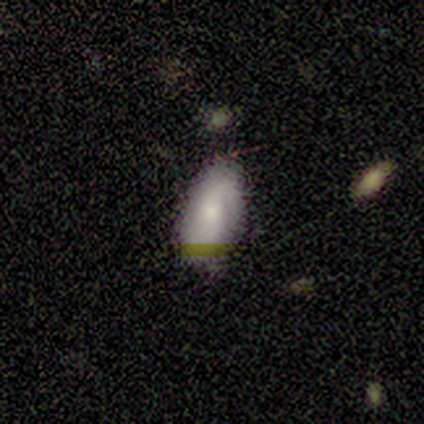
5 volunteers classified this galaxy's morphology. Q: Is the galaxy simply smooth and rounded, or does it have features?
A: featured or disk — 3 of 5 (60%).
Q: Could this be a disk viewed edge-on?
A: no — 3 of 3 (100%).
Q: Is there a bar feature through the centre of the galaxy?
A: weak — 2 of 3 (67%).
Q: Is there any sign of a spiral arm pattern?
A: yes — 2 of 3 (67%).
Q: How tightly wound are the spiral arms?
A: medium — 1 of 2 (50%, tied with loose).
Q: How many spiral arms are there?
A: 1 — 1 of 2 (50%, tied with 2).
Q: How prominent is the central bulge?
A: small — 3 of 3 (100%).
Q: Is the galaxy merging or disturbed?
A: none — 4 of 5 (80%).